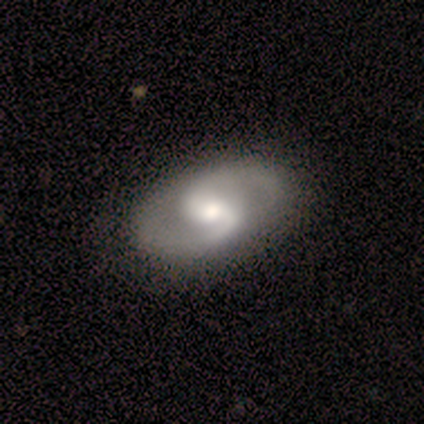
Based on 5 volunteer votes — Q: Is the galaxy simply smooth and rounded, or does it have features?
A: featured or disk — 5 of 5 (100%).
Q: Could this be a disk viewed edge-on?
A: no — 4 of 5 (80%).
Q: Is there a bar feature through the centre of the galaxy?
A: weak — 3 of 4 (75%).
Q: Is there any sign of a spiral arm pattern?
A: yes — 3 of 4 (75%).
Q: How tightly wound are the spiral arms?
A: tight — 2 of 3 (67%).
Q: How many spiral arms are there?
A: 2 — 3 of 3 (100%).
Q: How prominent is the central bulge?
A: moderate — 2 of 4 (50%, tied with small).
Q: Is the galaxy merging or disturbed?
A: none — 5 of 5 (100%).